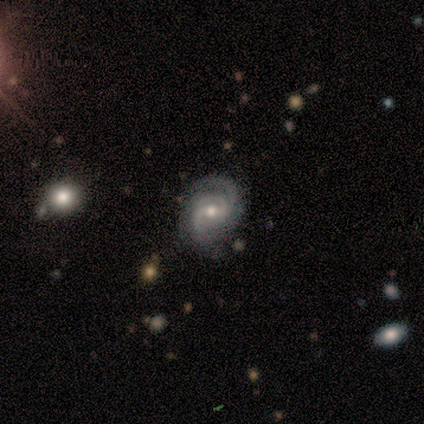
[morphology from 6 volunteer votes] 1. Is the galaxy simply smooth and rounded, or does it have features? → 100% featured or disk, 0% smooth, 0% star or artifact.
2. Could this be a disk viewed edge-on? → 100% no, 0% yes.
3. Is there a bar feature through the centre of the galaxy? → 33% strong (tied), 33% weak (tied), 33% no (tied).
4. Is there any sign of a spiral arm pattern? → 100% yes, 0% no.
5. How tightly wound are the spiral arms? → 50% tight, 33% medium, 17% loose.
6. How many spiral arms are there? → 50% 2, 33% can't tell, 17% 3, 0% 1, 0% 4, 0% more than 4.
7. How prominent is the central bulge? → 100% moderate, 0% dominant, 0% large, 0% small, 0% none.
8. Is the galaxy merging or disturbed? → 83% none, 17% major disturbance, 0% minor disturbance, 0% merger.